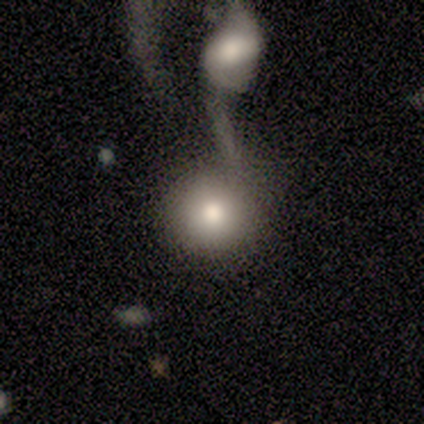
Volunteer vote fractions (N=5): smooth_or_featured: featured or disk (p=0.60) [alt: smooth p=0.40]
disk_edge_on: no (p=1.00)
bar: no (p=0.67) [alt: strong p=0.33]
has_spiral_arms: no (p=1.00)
bulge_size: moderate (p=0.67) [alt: large p=0.33]
merging: merger (p=0.60) [alt: none p=0.20]